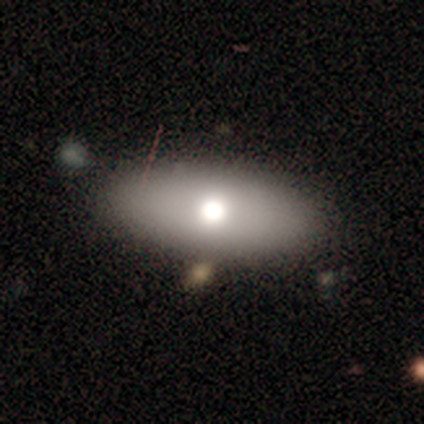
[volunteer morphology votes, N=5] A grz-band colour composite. It shows a smooth galaxy with no disk features (60%) that is in between round and cigar-shaped (100%). Merging: none (100%).